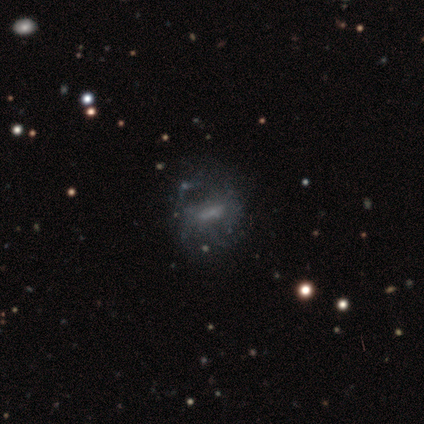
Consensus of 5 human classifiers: smooth 80%, featured or disk 20%, star or artifact 0%. Down the decision tree: how rounded — round (75%); merging — none (60%).